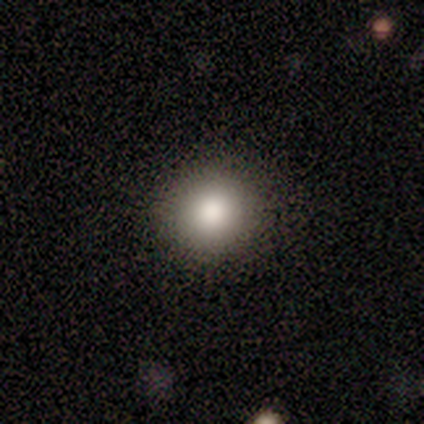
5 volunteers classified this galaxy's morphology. smooth_or_featured: smooth (p=1.00)
how_rounded: round (p=0.80) [alt: in between p=0.20]
merging: none (p=0.80) [alt: minor disturbance p=0.20]